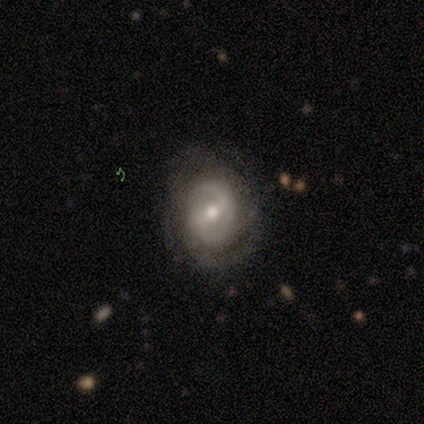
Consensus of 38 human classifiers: A featured or disk galaxy (76%) with a weak bar (46%), 2 (67%) medium (67%) spiral arms (86%) and a moderate central bulge (50%, tied with small).

Vote fractions:
- Smooth or featured? featured or disk: 76% / smooth: 16% / star or artifact: 8%
- Edge-on disk? no: 97% / yes: 3%
- Bar? weak: 46% / no: 32% / strong: 21%
- Spiral arms? yes: 86% / no: 14%
- Spiral winding? medium: 67% / tight: 25% / loose: 8%
- Spiral arm count? 2: 67% / can't tell: 25% / 1: 4% / more than 4: 4% / 3: 0% / 4: 0%
- Bulge size? moderate: 50% (tied) / small: 50% (tied) / dominant: 0% / large: 0% / none: 0%
- Merging? none: 71% / minor disturbance: 14% / major disturbance: 14% / merger: 0%